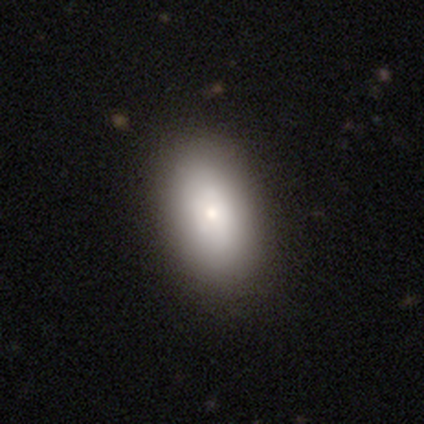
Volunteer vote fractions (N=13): A smooth galaxy with no disk features (92%) that is in between round and cigar-shaped (100%).

Vote fractions:
- Smooth or featured? smooth: 92% / star or artifact: 8% / featured or disk: 0%
- How rounded? in between: 100% / round: 0% / cigar-shaped: 0%
- Merging? none: 92% / minor disturbance: 8% / major disturbance: 0% / merger: 0%